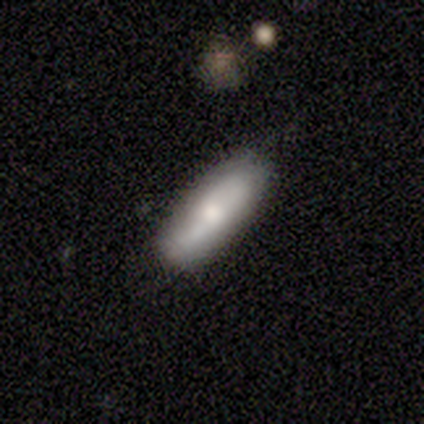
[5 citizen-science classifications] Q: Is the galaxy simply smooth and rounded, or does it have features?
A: smooth — 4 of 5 (80%).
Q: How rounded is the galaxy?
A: in between — 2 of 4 (50%, tied with cigar-shaped).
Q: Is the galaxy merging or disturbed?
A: none — 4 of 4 (100%).